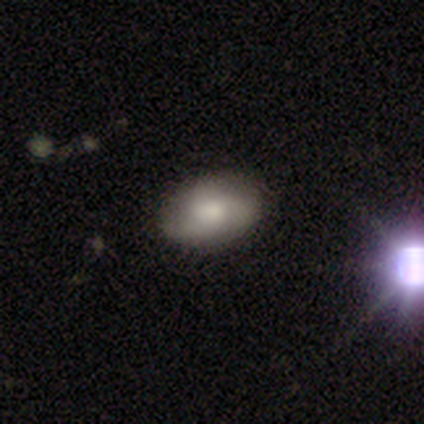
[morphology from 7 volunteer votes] smooth_or_featured: smooth (p=0.43) [tied with: featured or disk p=0.43]
how_rounded: in between (p=1.00)
merging: none (p=0.83) [alt: major disturbance p=0.17]